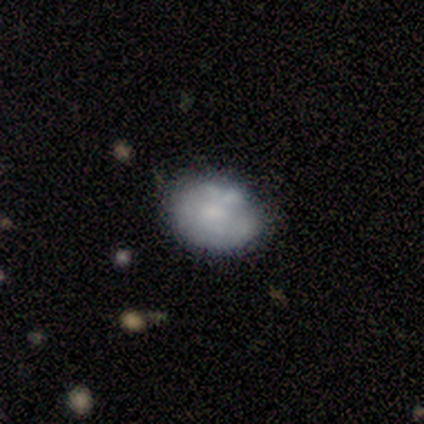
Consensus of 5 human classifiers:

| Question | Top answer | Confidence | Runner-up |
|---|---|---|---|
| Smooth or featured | smooth | 60% | featured or disk (20%) |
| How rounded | in between | 67% | round (33%) |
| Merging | none | 50% | tied: minor disturbance (50%) |